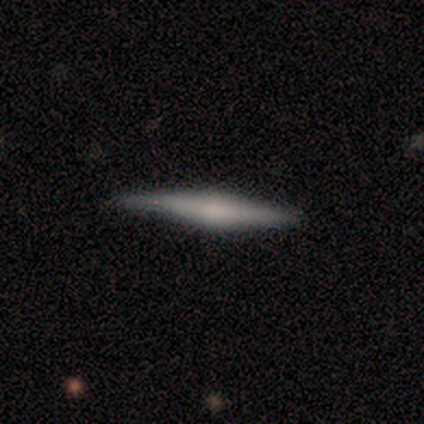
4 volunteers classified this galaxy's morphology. This appears to be a smooth galaxy with no disk features (50%, tied with featured or disk) that is cigar-shaped (100%). Merging: none (50%, tied with minor disturbance).